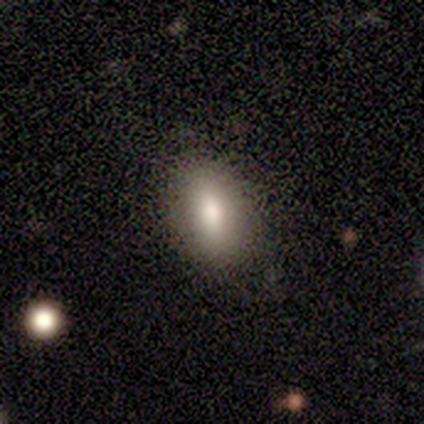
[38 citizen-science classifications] Smooth or featured?
  - smooth: 84% *
  - featured or disk: 11%
  - star or artifact: 5%
How rounded?
  - in between: 81% *
  - cigar-shaped: 12%
  - round: 6%
Merging?
  - none: 69% *
  - minor disturbance: 22%
  - major disturbance: 6%
  - merger: 3%